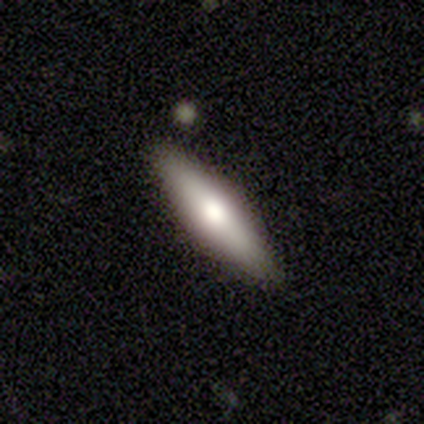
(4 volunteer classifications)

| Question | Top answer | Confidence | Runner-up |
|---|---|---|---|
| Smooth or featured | smooth | 50% | tied: featured or disk (50%) |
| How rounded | in between | 50% | tied: cigar-shaped (50%) |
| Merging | none | 100% | — |